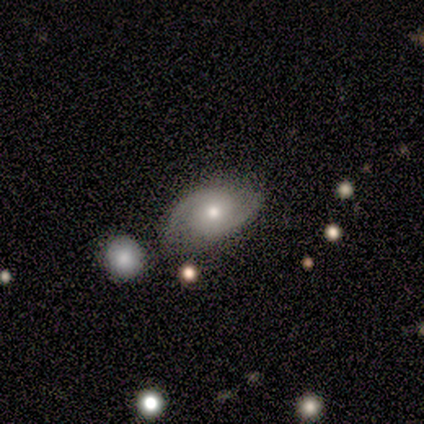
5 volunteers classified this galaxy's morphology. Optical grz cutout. It shows a featured or disk galaxy (80%) with a weak bar (50%, tied with no), 2 (100%) medium (75%) spiral arms (100%) and a moderate central bulge (75%). Merging: none (60%).